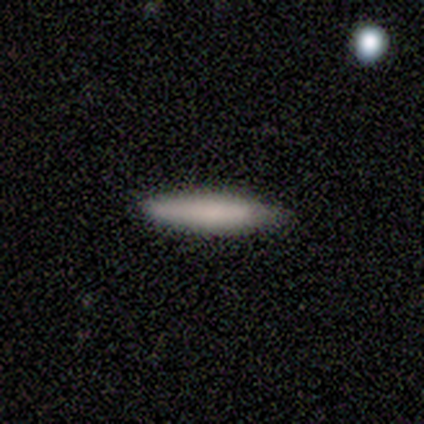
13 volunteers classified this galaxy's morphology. Q: Smooth or featured?
A: smooth (85%); runner-up: featured or disk (8%)
Q: How rounded?
A: cigar-shaped (100%)
Q: Merging?
A: none (83%); runner-up: minor disturbance (17%)